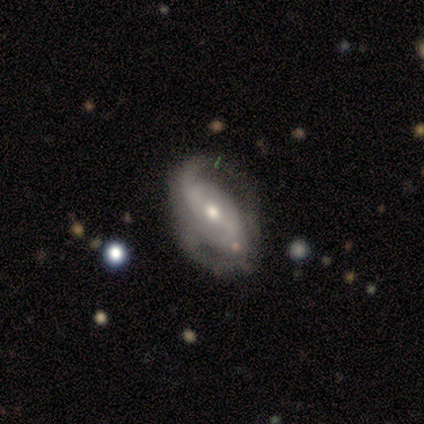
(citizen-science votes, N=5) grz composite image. It shows a featured or disk galaxy (100%) with a strong bar (40%, tied with weak), 2 (100%) medium (67%) spiral arms (60%) and a moderate central bulge (100%). Merging: minor disturbance (40%).